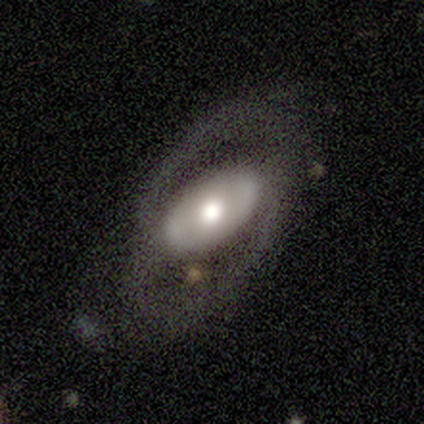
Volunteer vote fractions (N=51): This is likely a featured or disk galaxy (78%). It is clearly not viewed edge-on (92%). Bar: likely no (76%). Spiral arm pattern: possibly yes (51%). Spiral arm count: likely 2 (68%). Spiral winding: possibly medium (58%). Central bulge: likely moderate (62%). Merging: possibly none (57%).